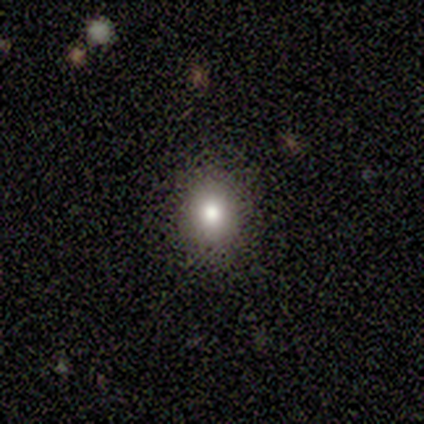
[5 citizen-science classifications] star or artifact 60%, smooth 40%, featured or disk 0%.